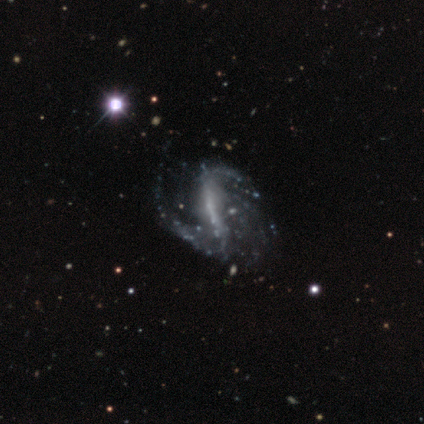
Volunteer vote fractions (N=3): smooth-or-featured: featured or disk: 100% | smooth: 0% | star or artifact: 0%
  disk-edge-on: no: 100% | yes: 0%
    bar: strong: 67% | no: 33% | weak: 0%
    has-spiral-arms: yes: 100% | no: 0%
      spiral-winding: loose: 67% | tight: 33% | medium: 0%
      spiral-arm-count: 1: 33% (tied) | 4: 33% (tied) | can't tell: 33% (tied) | 2: 0% | 3: 0% | more than 4: 0%
    bulge-size: none: 67% | moderate: 33% | dominant: 0% | large: 0% | small: 0%
  merging: none: 100% | minor disturbance: 0% | major disturbance: 0% | merger: 0%